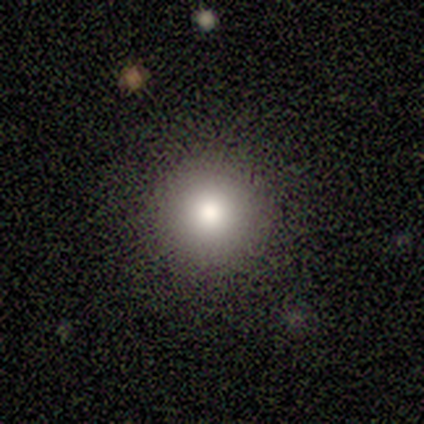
star or artifact 50%, smooth 25%, featured or disk 25%.